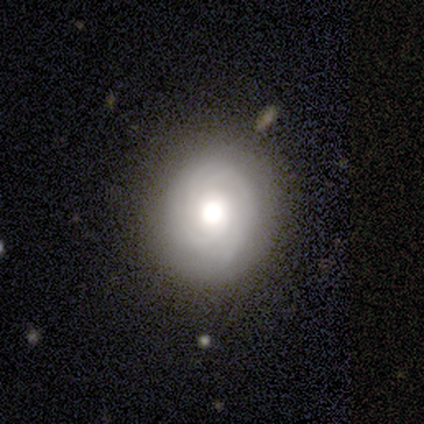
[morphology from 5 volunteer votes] Smooth or featured?
  - smooth: 80% *
  - featured or disk: 20%
  - star or artifact: 0%
How rounded?
  - round: 100% *
  - in between: 0%
  - cigar-shaped: 0%
Merging?
  - none: 100% *
  - minor disturbance: 0%
  - major disturbance: 0%
  - merger: 0%